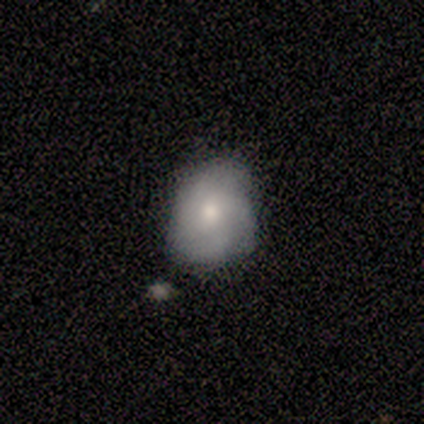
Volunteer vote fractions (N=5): smooth_or_featured: smooth (p=0.60) [alt: featured or disk p=0.40]
how_rounded: round (p=0.67) [alt: in between p=0.33]
merging: none (p=0.60) [alt: minor disturbance p=0.40]